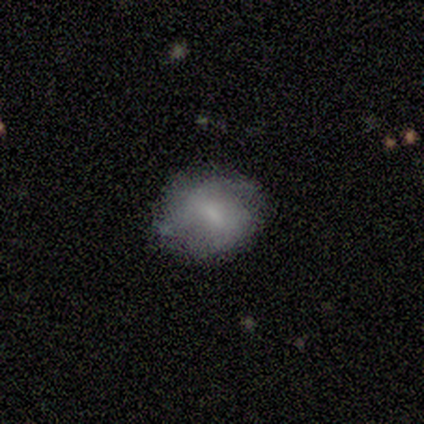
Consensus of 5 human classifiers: Morphology: type=smooth (80%); roundness=round (50%, tied with in between); merging=none (80%).